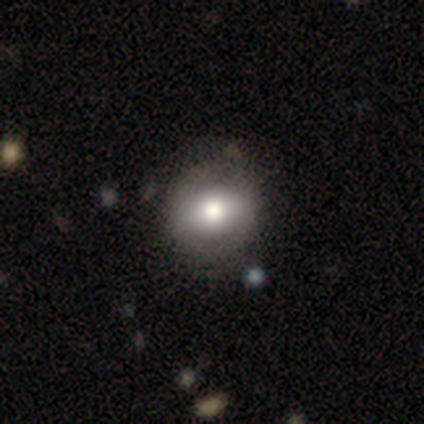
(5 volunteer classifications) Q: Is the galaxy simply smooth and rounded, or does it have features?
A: featured or disk — 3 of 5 (60%).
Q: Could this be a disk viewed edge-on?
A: no — 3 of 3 (100%).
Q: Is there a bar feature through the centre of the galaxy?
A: weak — 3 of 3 (100%).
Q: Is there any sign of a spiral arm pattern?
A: yes — 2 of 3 (67%).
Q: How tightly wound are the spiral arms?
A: tight — 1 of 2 (50%, tied with medium).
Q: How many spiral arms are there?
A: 2 — 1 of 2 (50%, tied with can't tell).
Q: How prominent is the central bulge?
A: moderate — 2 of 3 (67%).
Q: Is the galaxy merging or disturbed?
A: none — 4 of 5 (80%).